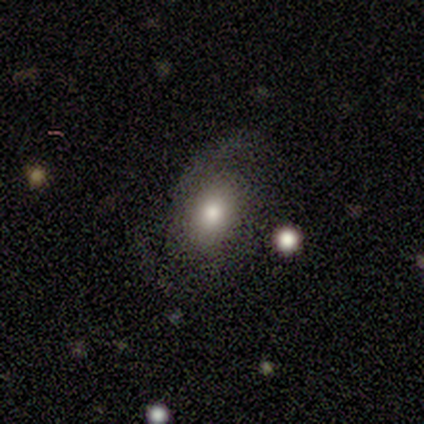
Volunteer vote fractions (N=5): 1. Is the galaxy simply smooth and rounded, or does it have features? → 40% smooth (tied), 40% featured or disk (tied), 20% star or artifact.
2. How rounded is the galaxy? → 50% round (tied), 50% in between (tied), 0% cigar-shaped.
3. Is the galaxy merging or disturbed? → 75% none, 25% merger, 0% minor disturbance, 0% major disturbance.